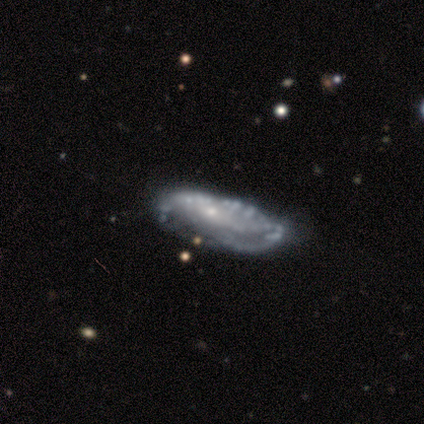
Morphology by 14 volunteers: smooth-or-featured: featured or disk: 93% | smooth: 7% | star or artifact: 0%
  disk-edge-on: no: 92% | yes: 8%
    bar: no: 83% | weak: 17% | strong: 0%
    has-spiral-arms: yes: 58% | no: 42%
      spiral-winding: tight: 57% | medium: 43% | loose: 0%
      spiral-arm-count: can't tell: 71% | 2: 14% | 3: 14% | 1: 0% | 4: 0% | more than 4: 0%
    bulge-size: small: 67% | moderate: 17% | none: 17% | dominant: 0% | large: 0%
  merging: none: 57% | major disturbance: 21% | minor disturbance: 14% | merger: 7%